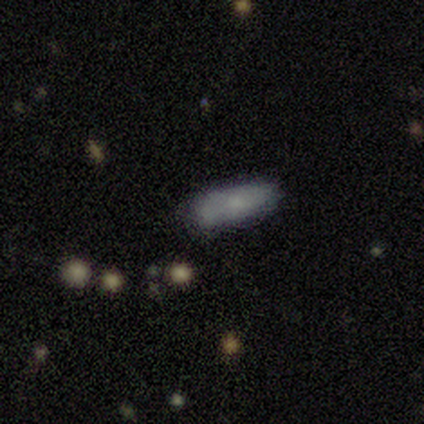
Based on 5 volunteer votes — This is clearly a smooth galaxy (80%). How rounded: likely in between (75%). Merging: clearly none (80%).